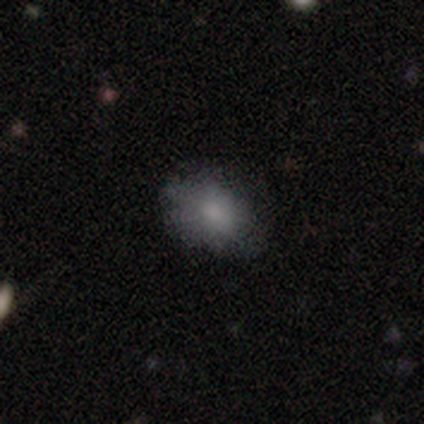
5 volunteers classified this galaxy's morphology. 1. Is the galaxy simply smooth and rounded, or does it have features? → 80% smooth, 20% featured or disk, 0% star or artifact.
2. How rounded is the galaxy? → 75% in between, 25% round, 0% cigar-shaped.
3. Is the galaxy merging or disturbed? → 60% none, 20% minor disturbance, 20% major disturbance, 0% merger.